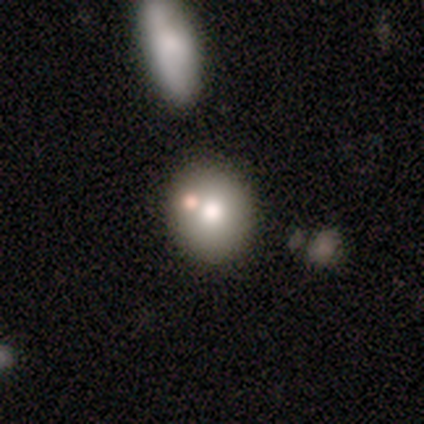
Smooth or featured: smooth — 80% (featured or disk — 20%)
How rounded: round — 75% (in between — 25%)
Merging: none — 80% (merger — 20%)